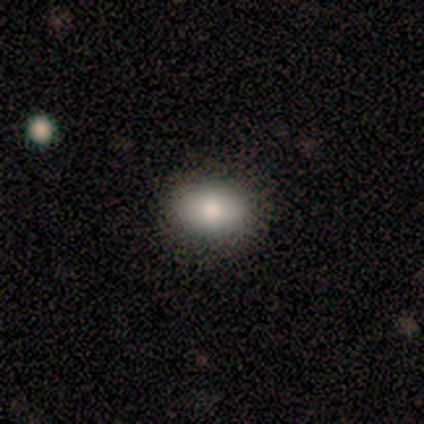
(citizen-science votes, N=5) This is clearly a smooth galaxy (100%). How rounded: clearly in between (80%). Merging: clearly none (100%).